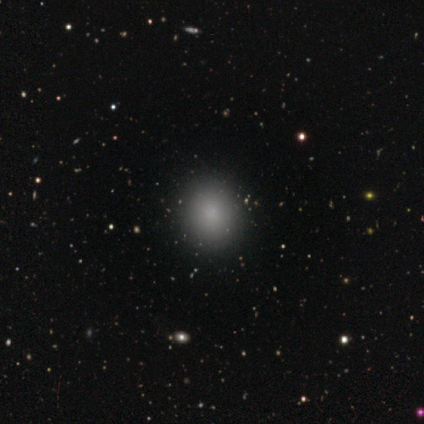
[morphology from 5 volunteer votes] Q: Smooth or featured?
A: smooth (100%)
Q: How rounded?
A: round (100%)
Q: Merging?
A: none (100%)